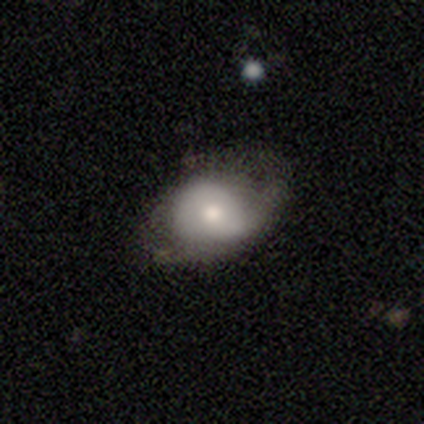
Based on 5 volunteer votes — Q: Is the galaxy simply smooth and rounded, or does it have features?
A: smooth — 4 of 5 (80%).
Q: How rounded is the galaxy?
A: round — 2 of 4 (50%, tied with in between).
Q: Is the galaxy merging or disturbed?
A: minor disturbance — 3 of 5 (60%).